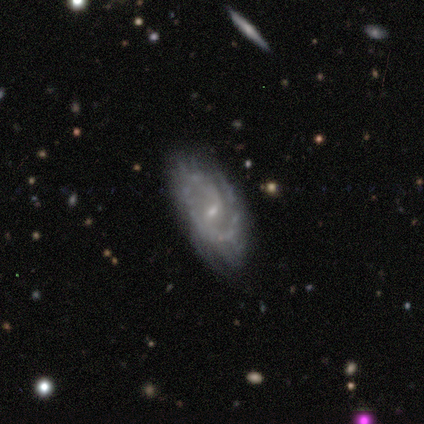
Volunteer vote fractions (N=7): featured or disk 100%, smooth 0%, star or artifact 0%. Down the decision tree: edge-on disk — no (100%); bar — weak (57%); spiral arms — yes (100%); spiral arm count — 2 (43%); spiral winding — medium (57%); bulge size — small (71%); merging — none (57%).